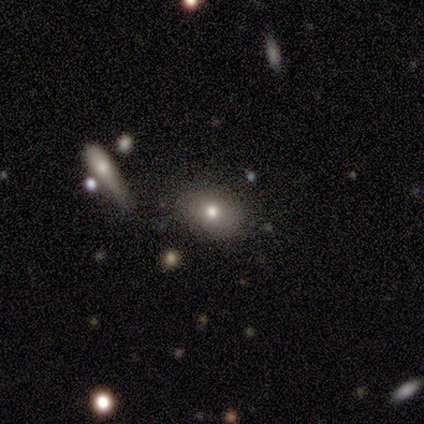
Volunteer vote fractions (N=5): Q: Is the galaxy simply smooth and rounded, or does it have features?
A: smooth — 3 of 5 (60%).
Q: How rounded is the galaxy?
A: round — 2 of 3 (67%).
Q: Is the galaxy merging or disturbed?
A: none — 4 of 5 (80%).